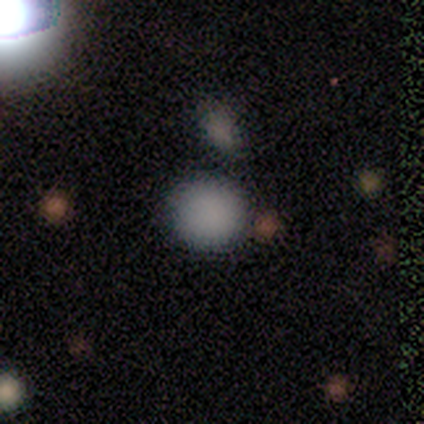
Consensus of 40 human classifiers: Smooth or featured? smooth (92%)
How rounded? round (95%)
Merging? none (88%)